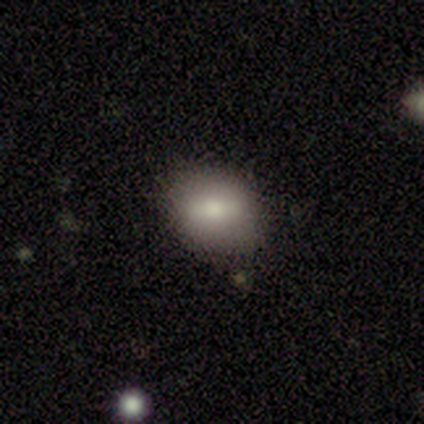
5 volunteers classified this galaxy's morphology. smooth_or_featured: smooth (p=0.60) [alt: featured or disk p=0.20]
how_rounded: in between (p=0.67) [alt: round p=0.33]
merging: none (p=1.00)